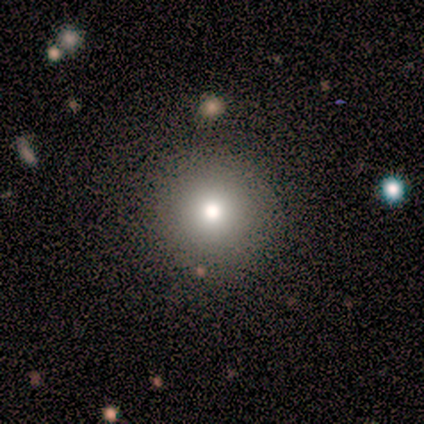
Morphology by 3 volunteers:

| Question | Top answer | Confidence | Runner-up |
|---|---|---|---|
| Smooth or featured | featured or disk | 67% | smooth (33%) |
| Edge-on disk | yes | 50% | tied: no (50%) |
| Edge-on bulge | none | 100% | — |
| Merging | none | 67% | minor disturbance (33%) |